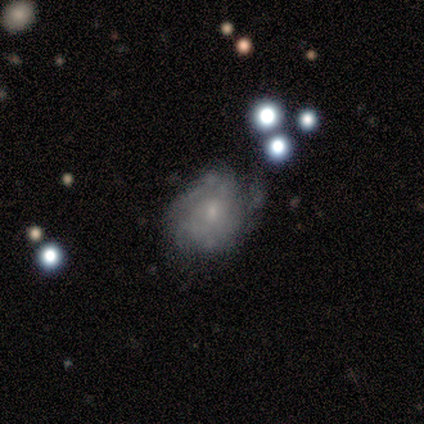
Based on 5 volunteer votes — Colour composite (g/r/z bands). It shows a featured or disk galaxy (80%) with a weak bar (75%), 2 (50%, tied with can't tell) tight (50%, tied with medium) spiral arms (50%, tied with no) and a small central bulge (75%). Merging: none (40%, tied with minor disturbance).